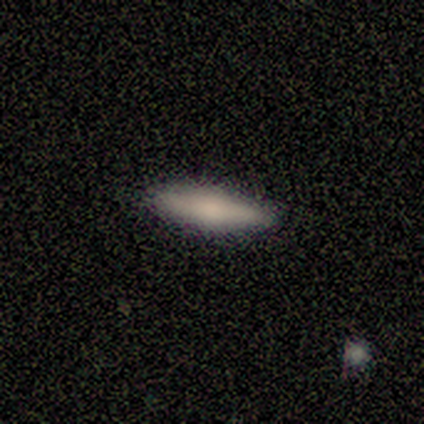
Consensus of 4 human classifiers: Smooth or featured? smooth (100%)
How rounded? cigar-shaped (100%)
Merging? none (100%)